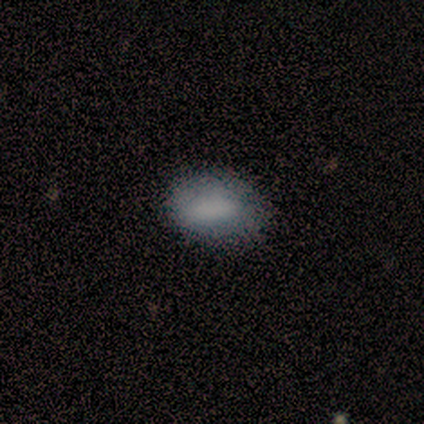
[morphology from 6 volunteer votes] Smooth or featured? 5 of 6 (83%) said smooth. How rounded? 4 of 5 (80%) said in between. Merging? 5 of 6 (83%) said none.